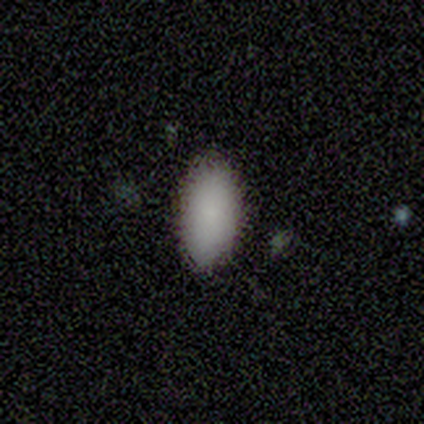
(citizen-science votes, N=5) A smooth galaxy with no disk features (100%) that is in between round and cigar-shaped (100%). Merging: none (100%).